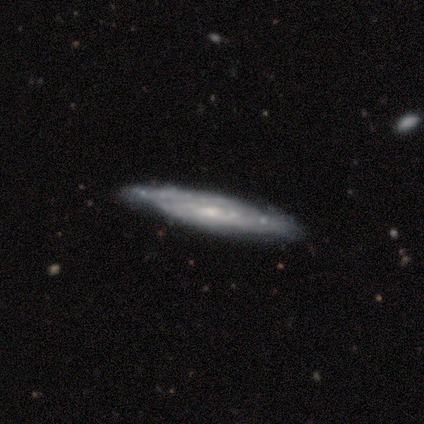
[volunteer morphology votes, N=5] Overall: featured or disk (80%). Edge-on disk: yes (50%, tied with no). Edge-on bulge: none (100%). Merging: none (75%).